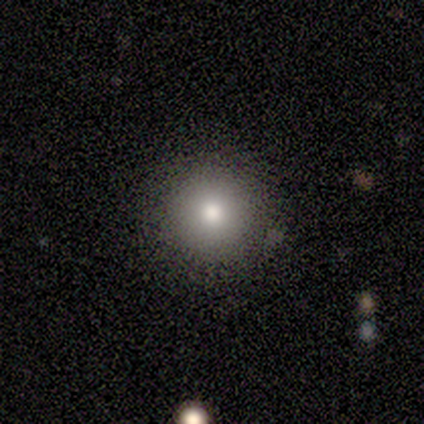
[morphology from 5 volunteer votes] smooth_or_featured: smooth (p=1.00)
how_rounded: round (p=1.00)
merging: none (p=1.00)